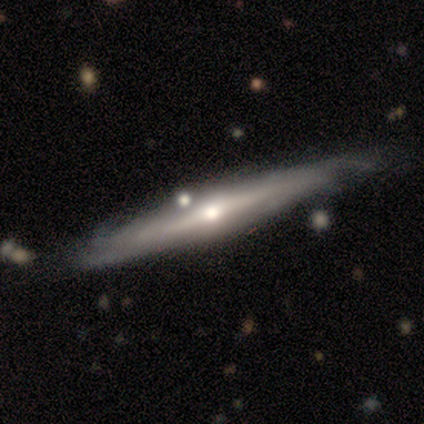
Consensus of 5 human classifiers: This is clearly a featured or disk galaxy (100%). It is clearly viewed edge-on (100%). Edge-on bulge: clearly rounded (80%). Merging: marginally none (40%).